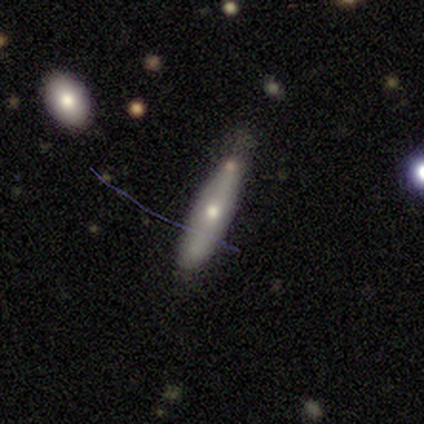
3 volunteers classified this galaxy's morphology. Overall: smooth (67%; featured or disk 33%). How rounded: cigar-shaped (100%). Merging: none (67%; minor disturbance 33%).